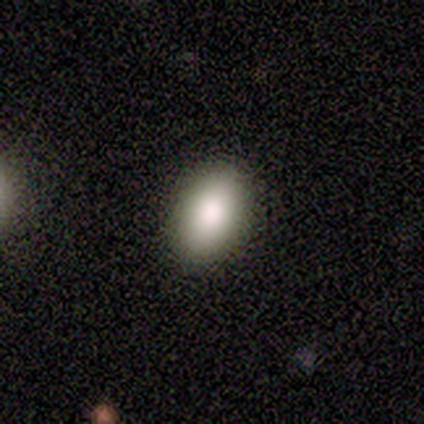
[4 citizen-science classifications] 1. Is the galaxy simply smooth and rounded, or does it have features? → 100% smooth, 0% featured or disk, 0% star or artifact.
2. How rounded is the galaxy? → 100% in between, 0% round, 0% cigar-shaped.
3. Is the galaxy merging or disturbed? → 100% none, 0% minor disturbance, 0% major disturbance, 0% merger.